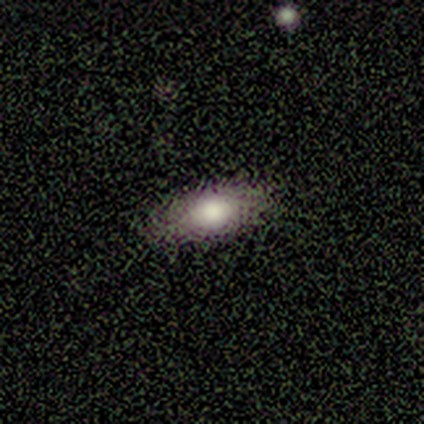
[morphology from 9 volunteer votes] Smooth or featured?
  - smooth: 78% *
  - featured or disk: 11%
  - star or artifact: 11%
How rounded?
  - in between: 86% *
  - cigar-shaped: 14%
  - round: 0%
Merging?
  - none: 88% *
  - minor disturbance: 12%
  - major disturbance: 0%
  - merger: 0%